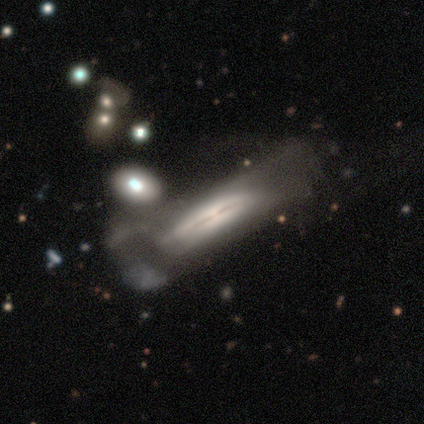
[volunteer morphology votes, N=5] smooth_or_featured: featured or disk (p=0.80) [alt: smooth p=0.20]
disk_edge_on: yes (p=0.75) [alt: no p=0.25]
edge_on_bulge: rounded (p=0.67) [alt: none p=0.33]
merging: major disturbance (p=0.40) [alt: none p=0.20]